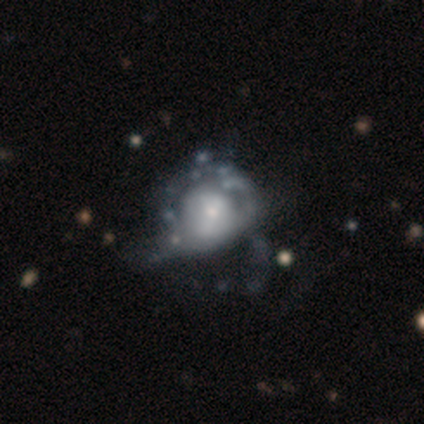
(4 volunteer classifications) Q: Smooth or featured?
A: featured or disk (100%)
Q: Edge-on disk?
A: no (100%)
Q: Bar?
A: no (75%); runner-up: strong (25%)
Q: Spiral arms?
A: no (75%); runner-up: yes (25%)
Q: Bulge size?
A: dominant (50%); runner-up: moderate (25%)
Q: Merging?
A: major disturbance (75%); runner-up: minor disturbance (25%)